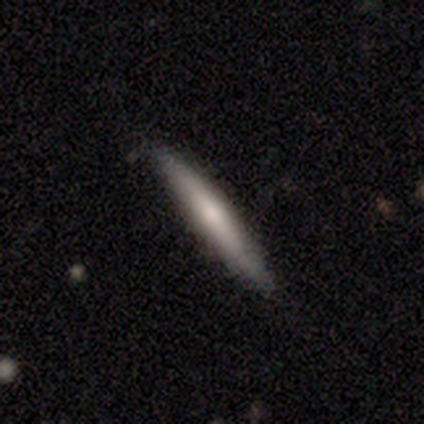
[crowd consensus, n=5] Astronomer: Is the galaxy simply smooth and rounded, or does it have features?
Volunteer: smooth — 80%.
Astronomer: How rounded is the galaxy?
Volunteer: cigar-shaped — 100%.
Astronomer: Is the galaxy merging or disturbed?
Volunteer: none — 100%.